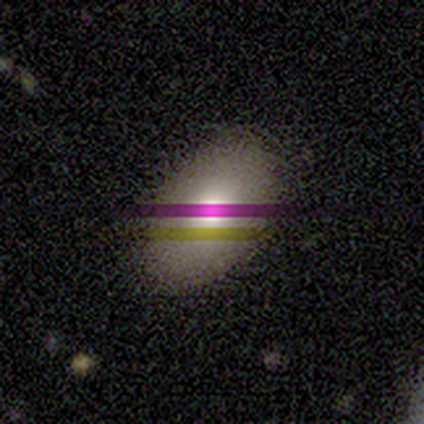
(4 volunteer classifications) Smooth or featured: smooth — 50% (tied with featured or disk — 50%)
How rounded: in between — 100%
Merging: none — 100%